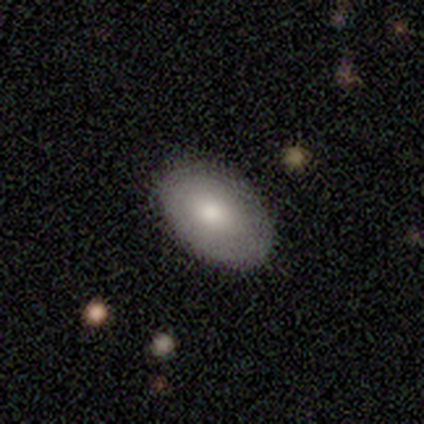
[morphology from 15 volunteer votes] Q: Smooth or featured?
A: smooth (67%); runner-up: featured or disk (33%)
Q: How rounded?
A: in between (90%); runner-up: round (10%)
Q: Merging?
A: none (60%); runner-up: minor disturbance (40%)